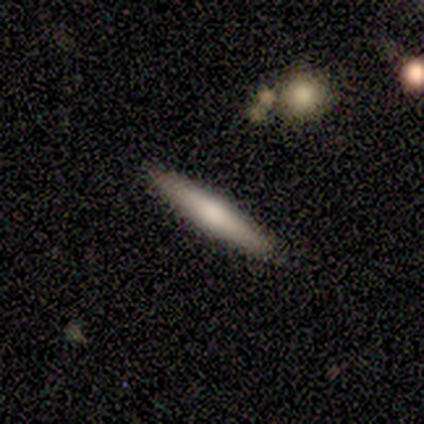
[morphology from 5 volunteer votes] Smooth or featured?
  - smooth: 60% *
  - featured or disk: 40%
  - star or artifact: 0%
How rounded?
  - cigar-shaped: 100% *
  - round: 0%
  - in between: 0%
Merging?
  - none: 100% *
  - minor disturbance: 0%
  - major disturbance: 0%
  - merger: 0%